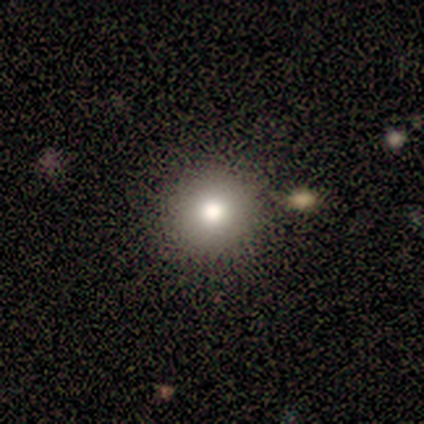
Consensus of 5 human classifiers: Morphology: type=smooth (100%); roundness=round (100%); merging=none (100%).